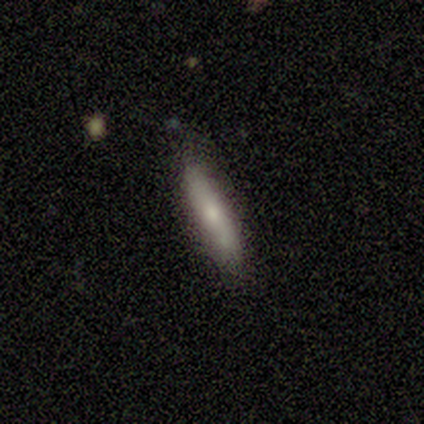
Morphology: type=smooth (62%); roundness=cigar-shaped (100%); merging=none (100%).